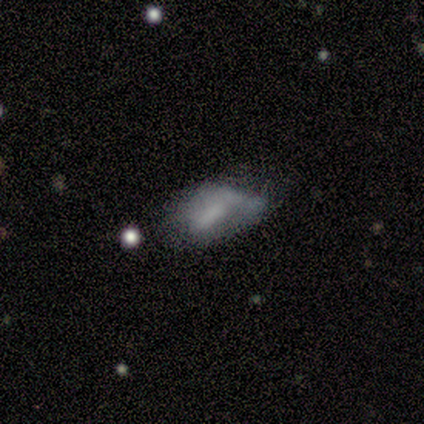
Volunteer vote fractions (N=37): smooth-or-featured: smooth: 62% | featured or disk: 38% | star or artifact: 0%
  how-rounded: in between: 100% | round: 0% | cigar-shaped: 0%
  merging: none: 35% | minor disturbance: 32% | major disturbance: 22% | merger: 11%